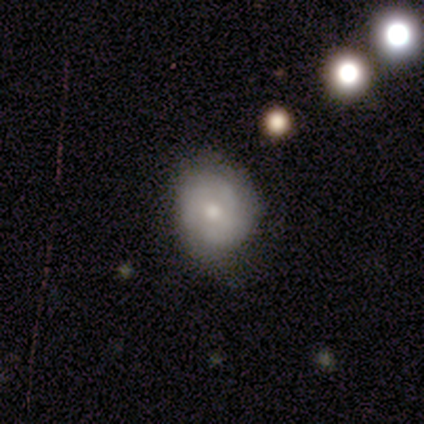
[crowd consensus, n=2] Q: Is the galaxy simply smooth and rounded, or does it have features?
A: smooth — 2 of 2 (100%).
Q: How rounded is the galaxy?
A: round — 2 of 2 (100%).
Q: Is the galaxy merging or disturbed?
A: none — 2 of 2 (100%).